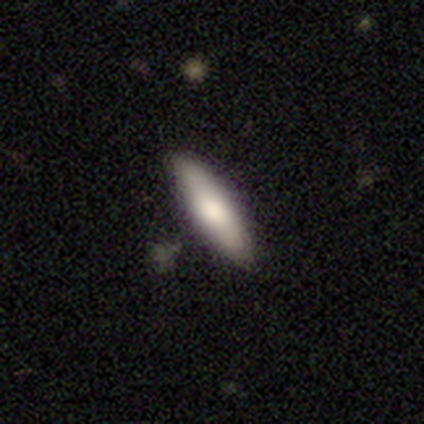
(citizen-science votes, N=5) smooth-or-featured: smooth: 80% | featured or disk: 20% | star or artifact: 0%
  how-rounded: cigar-shaped: 100% | round: 0% | in between: 0%
  merging: none: 80% | minor disturbance: 20% | major disturbance: 0% | merger: 0%